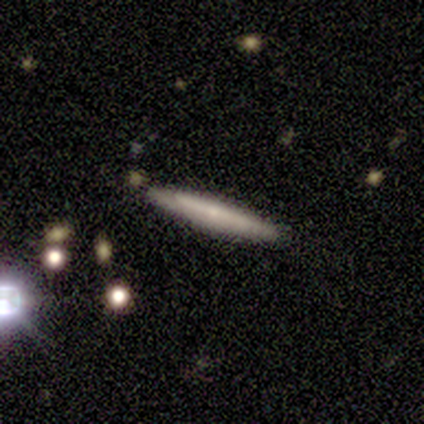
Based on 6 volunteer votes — Morphology: type=smooth (50%, tied with featured or disk); roundness=cigar-shaped (100%); merging=none (83%).